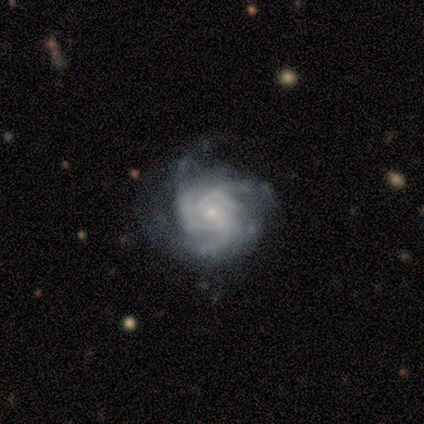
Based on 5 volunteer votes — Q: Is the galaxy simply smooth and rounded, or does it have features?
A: featured or disk — 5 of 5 (100%).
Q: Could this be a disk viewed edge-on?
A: no — 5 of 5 (100%).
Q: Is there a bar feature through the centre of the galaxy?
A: no — 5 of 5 (100%).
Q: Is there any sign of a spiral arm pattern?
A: yes — 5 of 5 (100%).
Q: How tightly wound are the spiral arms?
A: tight — 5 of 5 (100%).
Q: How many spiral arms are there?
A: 3 — 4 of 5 (80%).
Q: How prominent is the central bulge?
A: small — 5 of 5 (100%).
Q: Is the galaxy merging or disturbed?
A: none — 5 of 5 (100%).